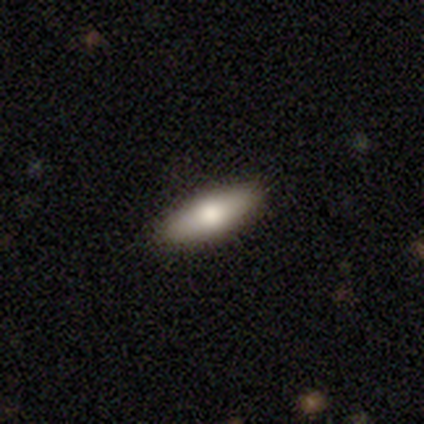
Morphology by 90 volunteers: Smooth or featured? smooth (72%)
How rounded? in between (52%)
Merging? none (89%)